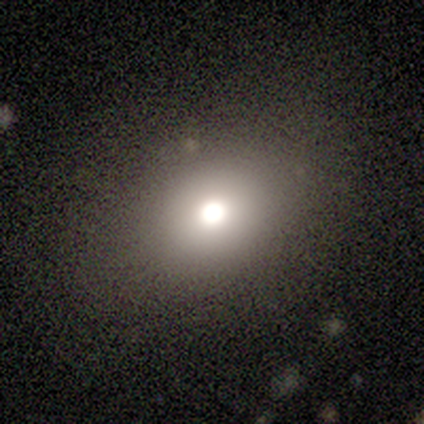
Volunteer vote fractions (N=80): A smooth galaxy with no disk features (76%) that is in between round and cigar-shaped (54%). Merging: none (63%).